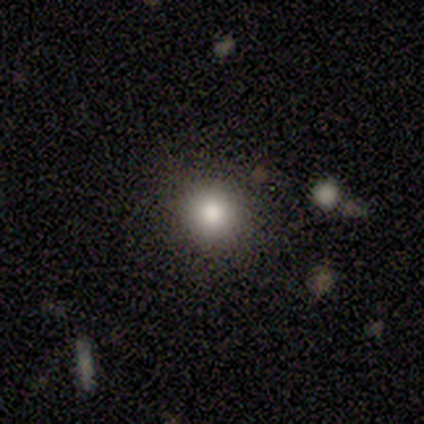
A smooth galaxy with no disk features (100%) that is round (100%). Merging: none (80%).